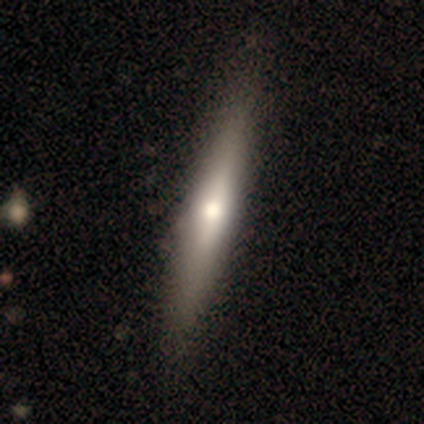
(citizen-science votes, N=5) This appears to be a featured or disk galaxy (100%) viewed edge-on (60%) with a rounded central bulge (100%). Merging: none (100%).